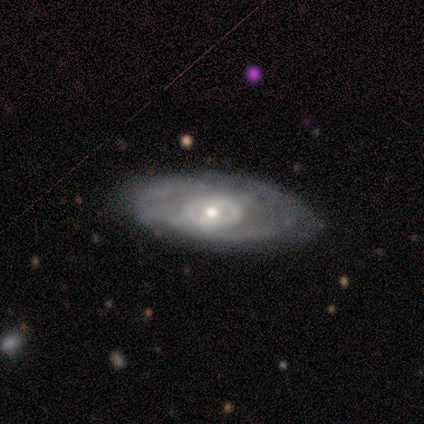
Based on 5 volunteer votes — Smooth or featured?
  - featured or disk: 80% *
  - smooth: 20%
  - star or artifact: 0%
Edge-on disk?
  - no: 100% *
  - yes: 0%
Bar?
  - no: 100% *
  - strong: 0%
  - weak: 0%
Spiral arms?
  - no: 75% *
  - yes: 25%
Bulge size?
  - moderate: 100% *
  - dominant: 0%
  - large: 0%
  - small: 0%
  - none: 0%
Merging?
  - none: 60% *
  - minor disturbance: 40%
  - major disturbance: 0%
  - merger: 0%